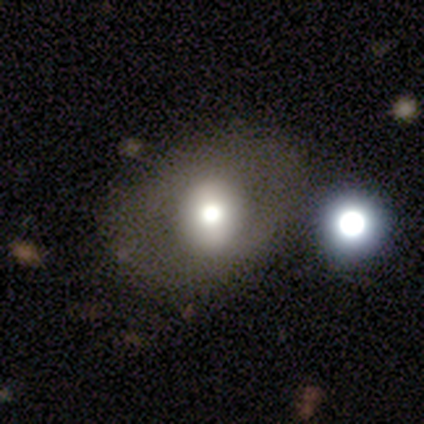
A featured or disk galaxy (40%, tied with star or artifact) with a weak bar (50%, tied with no), no spiral arms (100%) and a large central bulge (100%). Merging: none (67%).